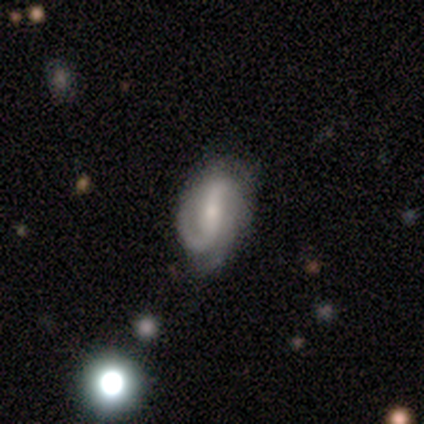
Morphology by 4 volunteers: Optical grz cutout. It shows a featured or disk galaxy (75%) with a strong bar (33%, tied with weak and no), 2 (100%) loose (100%) spiral arms (67%) and a small central bulge (67%). Merging: none (67%).